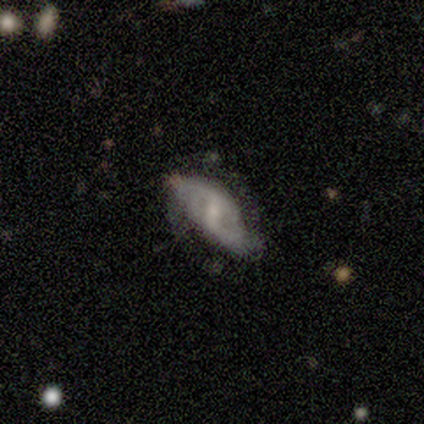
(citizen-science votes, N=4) Q: Smooth or featured?
A: featured or disk (75%); runner-up: smooth (25%)
Q: Edge-on disk?
A: no (100%)
Q: Bar?
A: weak (67%); runner-up: no (33%)
Q: Spiral arms?
A: yes (100%)
Q: Spiral winding?
A: tight (33%); tied with: medium (33%); loose (33%)
Q: Spiral arm count?
A: 2 (100%)
Q: Bulge size?
A: small (67%); runner-up: moderate (33%)
Q: Merging?
A: none (75%); runner-up: major disturbance (25%)